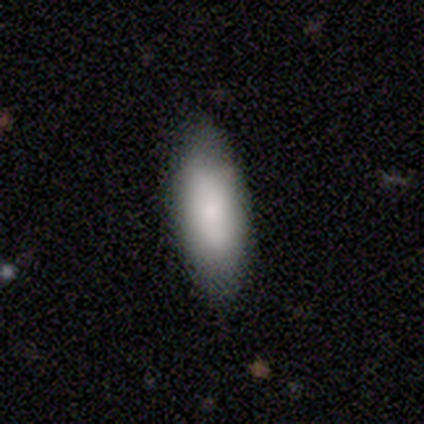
Smooth or featured: smooth — 100%
How rounded: in between — 75% (cigar-shaped — 25%)
Merging: none — 75% (minor disturbance — 25%)